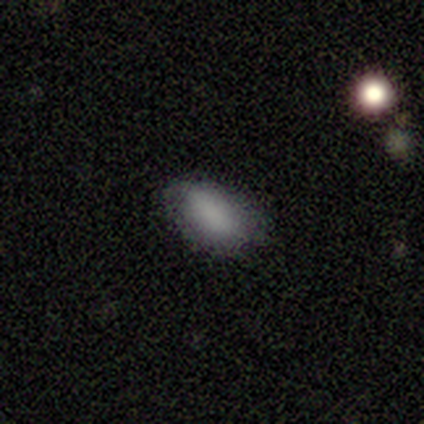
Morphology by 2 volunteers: Volunteers were most divided on "merging" (2-way tie): none: 50%, minor disturbance: 50%, major disturbance: 0%, merger: 0%. More confident: smooth or featured — smooth (100%); how rounded — in between (100%).